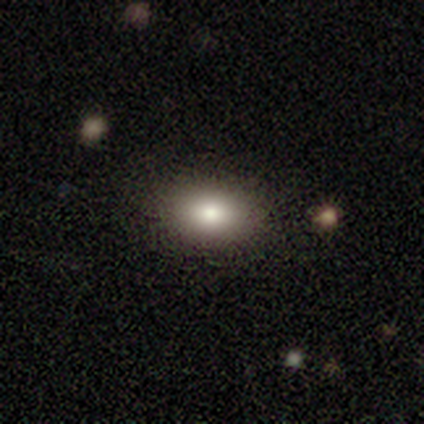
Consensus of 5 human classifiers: Smooth or featured? smooth (60%)
How rounded? in between (67%)
Merging? none (100%)